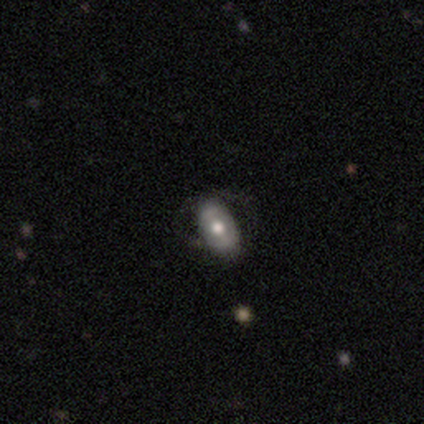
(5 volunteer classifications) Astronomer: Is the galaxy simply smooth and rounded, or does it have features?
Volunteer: featured or disk — 80%.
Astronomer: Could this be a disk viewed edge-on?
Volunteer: no — 100%.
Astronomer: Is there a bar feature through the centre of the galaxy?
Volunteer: weak — 50%, tied with no at 50%.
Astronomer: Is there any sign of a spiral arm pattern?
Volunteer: no — 75%.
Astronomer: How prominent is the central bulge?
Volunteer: moderate — 50%.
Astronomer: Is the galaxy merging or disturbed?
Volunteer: none — 80%.